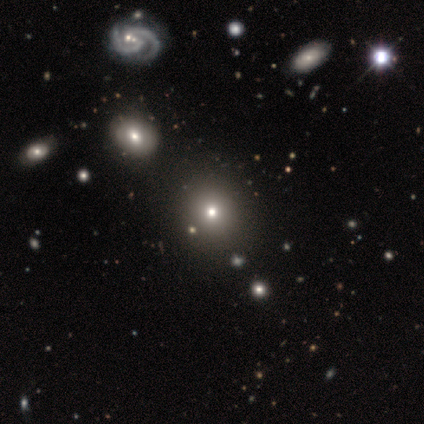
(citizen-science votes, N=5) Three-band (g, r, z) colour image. It shows a smooth galaxy with no disk features (60%) that is round (100%). Merging: none (100%).